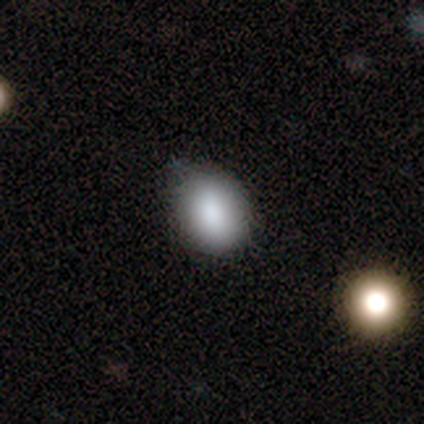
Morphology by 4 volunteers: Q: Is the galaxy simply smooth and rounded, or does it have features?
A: smooth — 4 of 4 (100%).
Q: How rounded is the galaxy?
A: in between — 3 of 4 (75%).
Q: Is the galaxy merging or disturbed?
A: none — 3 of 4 (75%).